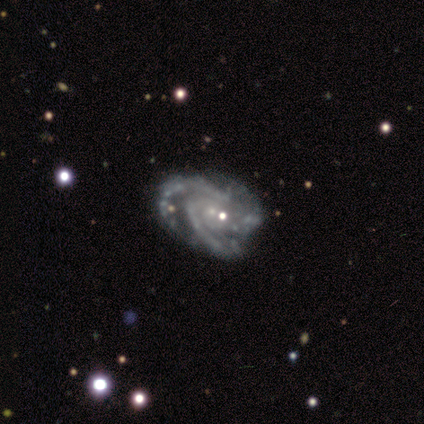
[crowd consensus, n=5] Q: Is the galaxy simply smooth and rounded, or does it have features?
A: featured or disk — 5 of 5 (100%).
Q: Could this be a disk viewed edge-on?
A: no — 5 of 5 (100%).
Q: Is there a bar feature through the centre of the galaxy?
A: no — 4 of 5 (80%).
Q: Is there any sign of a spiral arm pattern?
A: yes — 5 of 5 (100%).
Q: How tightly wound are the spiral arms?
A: tight — 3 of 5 (60%).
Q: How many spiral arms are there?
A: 2 — 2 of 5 (40%, tied with can't tell).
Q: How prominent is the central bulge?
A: small — 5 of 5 (100%).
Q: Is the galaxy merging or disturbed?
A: none — 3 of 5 (60%).